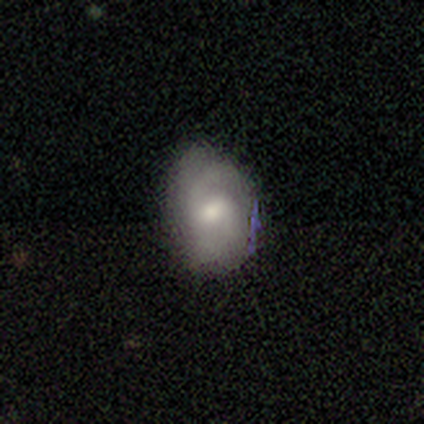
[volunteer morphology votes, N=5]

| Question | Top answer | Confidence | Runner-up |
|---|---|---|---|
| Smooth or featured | smooth | 80% | featured or disk (20%) |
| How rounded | in between | 100% | — |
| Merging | minor disturbance | 80% | major disturbance (20%) |